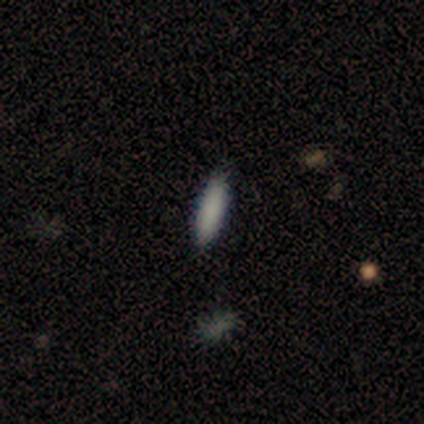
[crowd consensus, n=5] smooth-or-featured: smooth: 100% | featured or disk: 0% | star or artifact: 0%
  how-rounded: cigar-shaped: 60% | in between: 40% | round: 0%
  merging: none: 100% | minor disturbance: 0% | major disturbance: 0% | merger: 0%